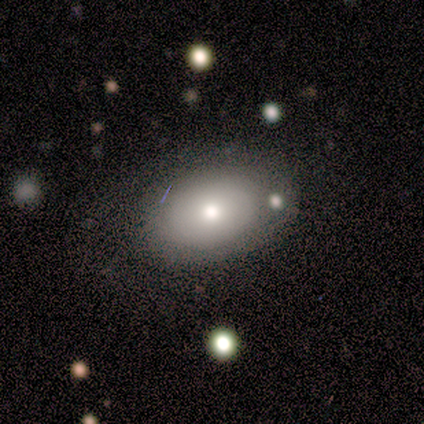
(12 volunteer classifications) smooth_or_featured: smooth (p=0.50) [alt: featured or disk p=0.33]
how_rounded: in between (p=0.67) [alt: round p=0.33]
merging: none (p=0.40) [alt: minor disturbance p=0.30]